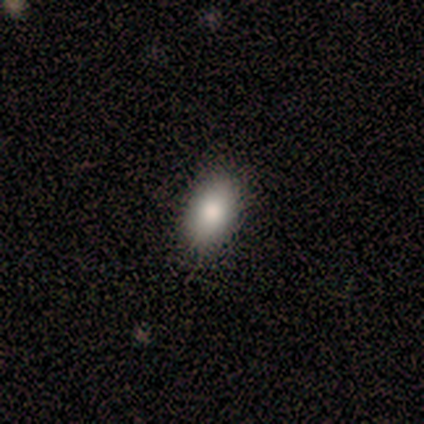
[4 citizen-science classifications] Q: Smooth or featured?
A: smooth (75%); runner-up: featured or disk (25%)
Q: How rounded?
A: in between (100%)
Q: Merging?
A: none (100%)